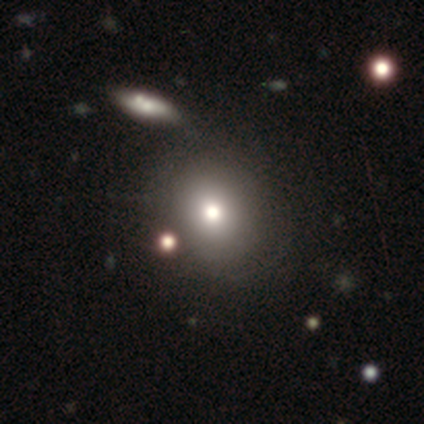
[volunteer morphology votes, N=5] Volunteers were most divided on "smooth or featured": smooth: 60%, star or artifact: 40%, featured or disk: 0%. More confident: how rounded — round (100%); merging — none (100%).